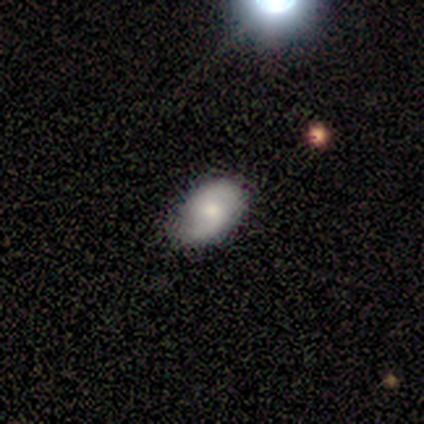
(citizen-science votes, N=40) Volunteers were most divided on "spiral winding": loose: 40%, tight: 36%, medium: 24%. More confident: edge-on disk — no (96%); spiral arms — yes (96%); spiral arm count — 2 (84%); bar — no (69%); smooth or featured — featured or disk (68%); bulge size — moderate (58%); merging — none (50%).